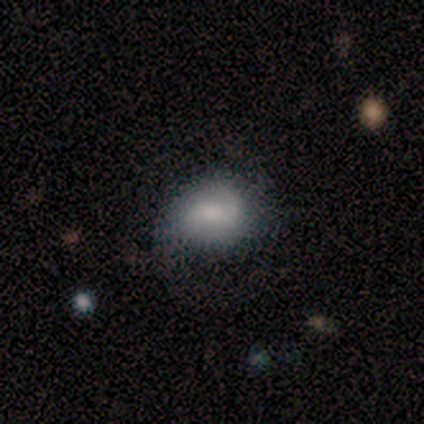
This is likely a featured or disk galaxy (75%). It is clearly not viewed edge-on (100%). Bar: likely weak (67%). Spiral arm pattern: likely yes (67%). Spiral arm count: possibly 1 (50%, tied with 2). Spiral winding: possibly tight (50%, tied with loose). Central bulge: likely moderate (67%). Merging: possibly major disturbance (50%).